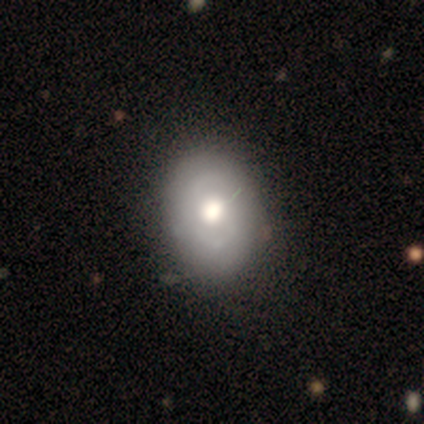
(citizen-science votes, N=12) Smooth or featured? featured or disk (75%)
Edge-on disk? no (100%)
Bar? no (89%)
Spiral arms? no (78%)
Bulge size? moderate (89%)
Merging? none (91%)